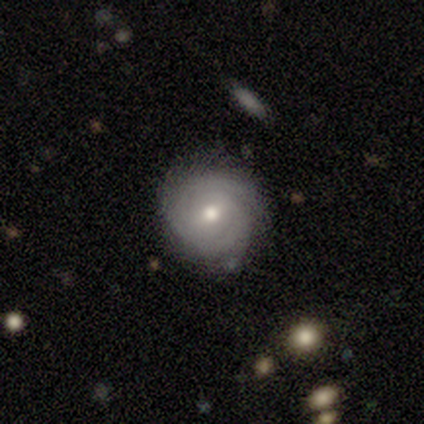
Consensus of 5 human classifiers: This is clearly a featured or disk galaxy (80%). It is clearly not viewed edge-on (100%). Bar: likely weak (75%). Spiral arm pattern: clearly yes (100%). Spiral arm count: possibly 2 (50%, tied with can't tell). Spiral winding: clearly tight (100%). Central bulge: likely moderate (75%). Merging: clearly none (100%).